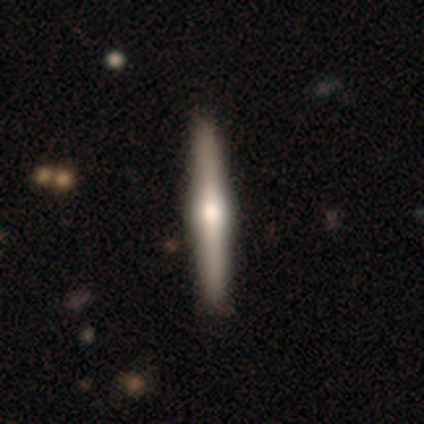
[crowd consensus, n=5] Smooth or featured? 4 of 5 (80%) said featured or disk. Edge-on disk? 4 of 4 (100%) said yes. Edge-on bulge? 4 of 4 (100%) said rounded. Merging? 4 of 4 (100%) said none.